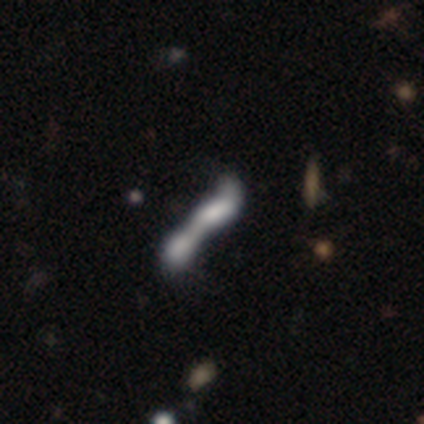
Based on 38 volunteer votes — This is possibly a smooth galaxy (53%). How rounded: possibly cigar-shaped (50%). Merging: clearly merger (86%).